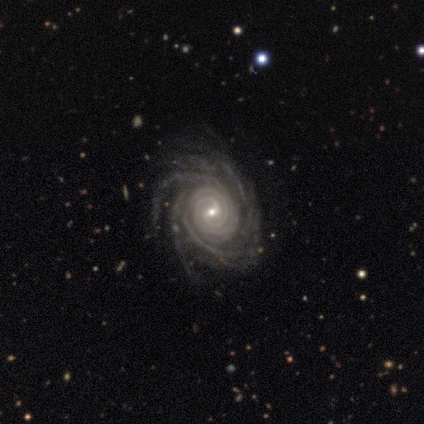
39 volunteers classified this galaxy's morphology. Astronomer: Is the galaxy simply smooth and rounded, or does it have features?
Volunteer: featured or disk — 92%.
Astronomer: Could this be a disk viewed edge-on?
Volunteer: no — 97%.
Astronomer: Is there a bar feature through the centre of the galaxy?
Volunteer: weak — 57%.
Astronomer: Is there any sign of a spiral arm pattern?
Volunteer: yes — 100%.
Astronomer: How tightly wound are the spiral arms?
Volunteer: tight — 83%.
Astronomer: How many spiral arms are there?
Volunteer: more than 4 — 49% (runner-up: 4, 29%).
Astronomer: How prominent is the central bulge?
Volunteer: small — 89%.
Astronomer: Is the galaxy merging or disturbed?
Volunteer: none — 86%.